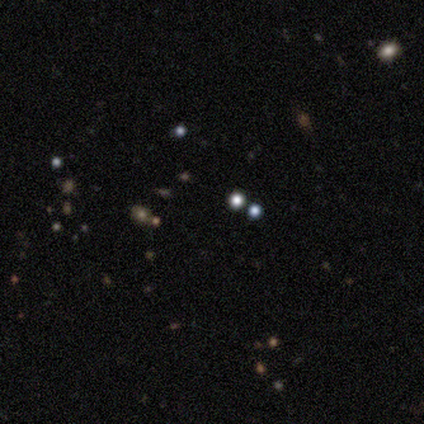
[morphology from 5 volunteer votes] A star or artifact, not a galaxy (60%).